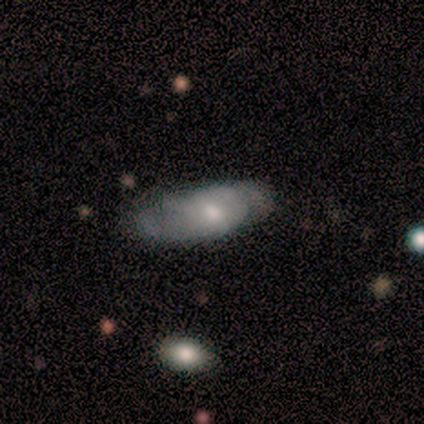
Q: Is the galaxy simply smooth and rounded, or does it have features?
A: smooth — 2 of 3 (67%).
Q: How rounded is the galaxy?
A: in between — 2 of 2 (100%).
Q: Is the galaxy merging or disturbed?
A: none — 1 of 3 (33%, tied with minor disturbance and major disturbance).